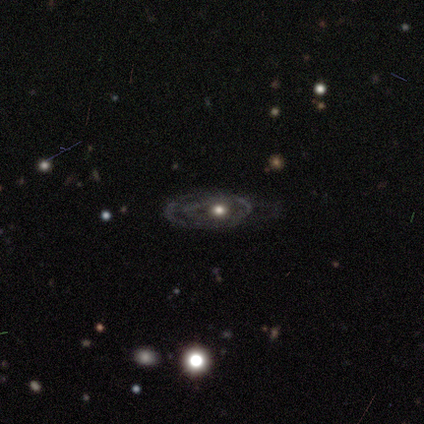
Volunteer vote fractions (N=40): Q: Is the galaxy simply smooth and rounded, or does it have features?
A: featured or disk — 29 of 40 (72%).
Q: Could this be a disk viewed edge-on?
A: no — 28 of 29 (97%).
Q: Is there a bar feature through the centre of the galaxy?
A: no — 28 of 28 (100%).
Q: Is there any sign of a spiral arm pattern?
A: yes — 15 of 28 (54%).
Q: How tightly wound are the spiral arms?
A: tight — 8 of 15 (53%).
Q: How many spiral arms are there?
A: can't tell — 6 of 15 (40%).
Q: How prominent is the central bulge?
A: moderate — 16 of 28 (57%).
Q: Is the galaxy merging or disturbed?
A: none — 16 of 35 (46%).